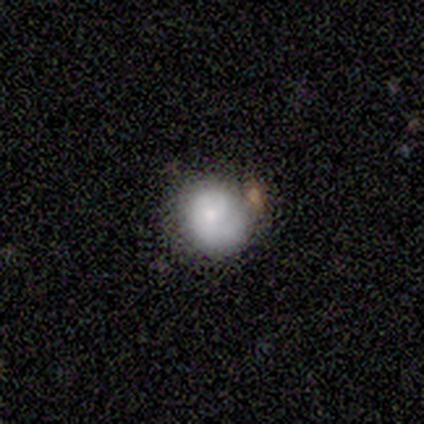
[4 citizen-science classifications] Q: Smooth or featured?
A: smooth (75%); runner-up: star or artifact (25%)
Q: How rounded?
A: round (100%)
Q: Merging?
A: minor disturbance (67%); runner-up: none (33%)